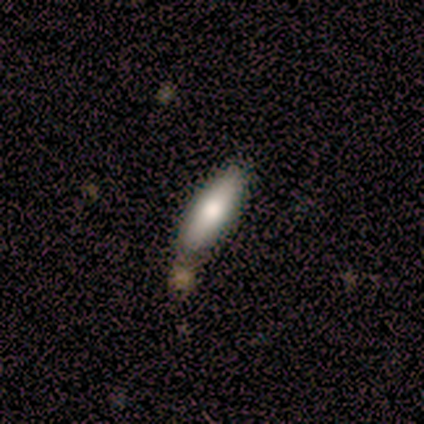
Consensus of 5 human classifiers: Smooth or featured?
  - smooth: 80% *
  - featured or disk: 20%
  - star or artifact: 0%
How rounded?
  - in between: 50% * (tied)
  - cigar-shaped: 50% * (tied)
  - round: 0%
Merging?
  - none: 80% *
  - minor disturbance: 20%
  - major disturbance: 0%
  - merger: 0%